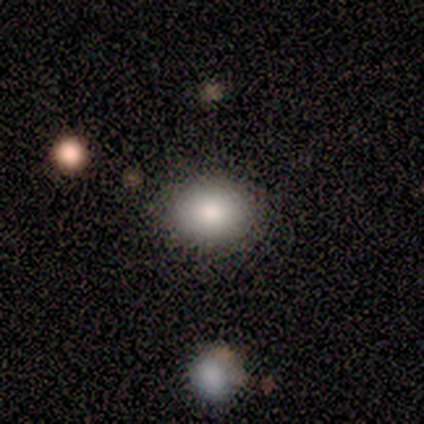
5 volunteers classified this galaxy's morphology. Smooth or featured? 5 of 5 (100%) said smooth. How rounded? 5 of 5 (100%) said round. Merging? 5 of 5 (100%) said none.